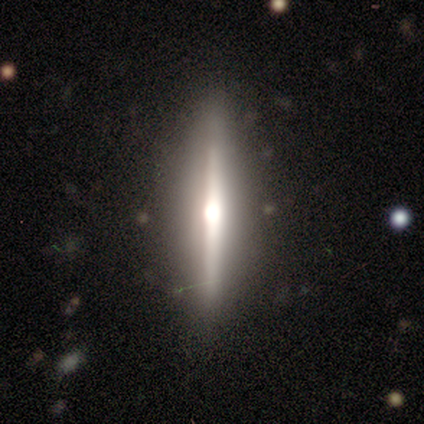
featured or disk 82%, smooth 15%, star or artifact 3%. Down the decision tree: edge-on disk — yes (97%); edge-on bulge — rounded (87%); merging — none (92%).